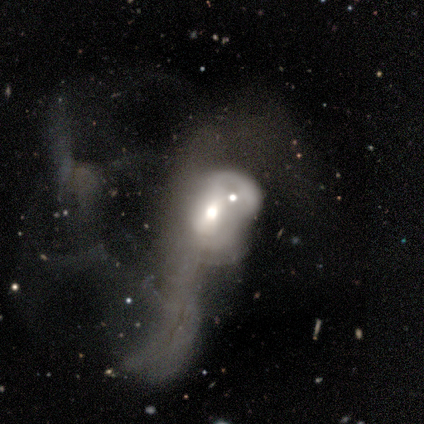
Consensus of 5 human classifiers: Morphology: type=featured or disk (40%, tied with star or artifact); edge-on=no (100%); bar=no (100%); spiral arms=yes (50%, tied with no); winding=medium (100%); arm count=2 (100%); bulge=small (100%); merging=major disturbance (67%).